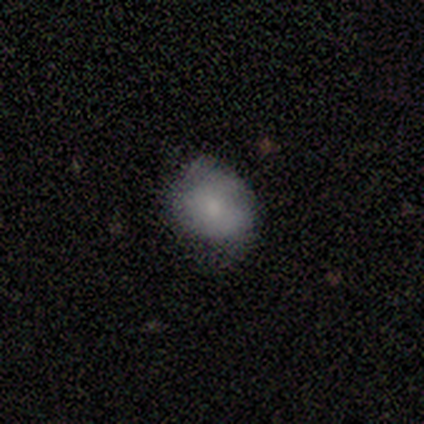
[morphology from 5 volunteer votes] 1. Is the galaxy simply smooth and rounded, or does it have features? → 60% smooth, 40% featured or disk, 0% star or artifact.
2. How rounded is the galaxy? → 100% in between, 0% round, 0% cigar-shaped.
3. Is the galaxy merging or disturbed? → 100% minor disturbance, 0% none, 0% major disturbance, 0% merger.